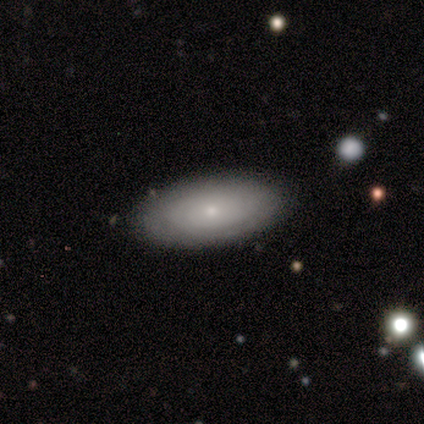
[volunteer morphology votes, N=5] smooth_or_featured: featured or disk (p=0.60) [alt: smooth p=0.40]
disk_edge_on: no (p=0.67) [alt: yes p=0.33]
bar: no (p=1.00)
has_spiral_arms: yes (p=0.50) [tied with: no p=0.50]
spiral_winding: tight (p=1.00)
spiral_arm_count: can't tell (p=1.00)
bulge_size: small (p=1.00)
merging: none (p=0.80) [alt: minor disturbance p=0.20]